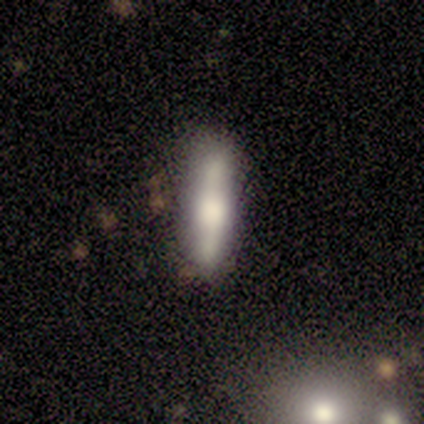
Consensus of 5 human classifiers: Smooth or featured: smooth — 60% (featured or disk — 40%)
How rounded: cigar-shaped — 100%
Merging: none — 60% (minor disturbance — 40%)